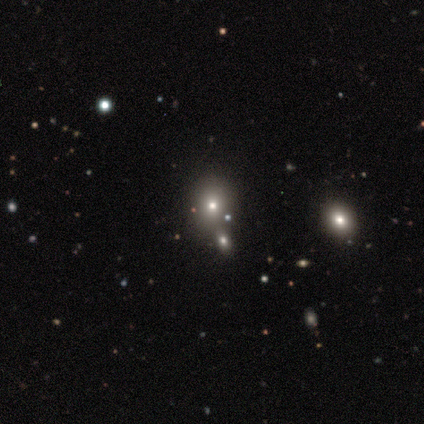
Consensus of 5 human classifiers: smooth_or_featured: smooth (p=0.60) [alt: featured or disk p=0.20]
how_rounded: in between (p=0.67) [alt: cigar-shaped p=0.33]
merging: none (p=0.25) [tied with: minor disturbance p=0.25, major disturbance p=0.25, merger p=0.25]